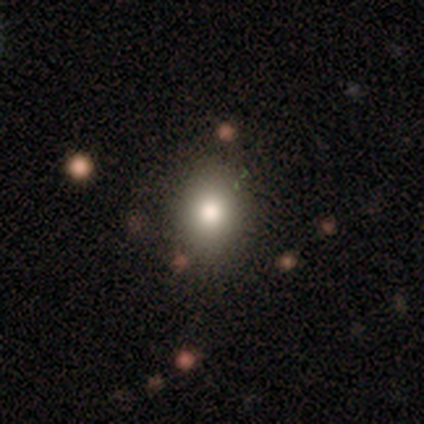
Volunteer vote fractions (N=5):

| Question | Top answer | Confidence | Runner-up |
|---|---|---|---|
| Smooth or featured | smooth | 80% | featured or disk (20%) |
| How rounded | in between | 50% | round (25%) |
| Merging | none | 100% | — |